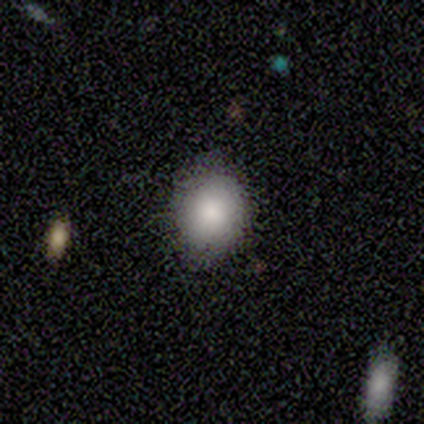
Overall: smooth (80%). How rounded: in between (75%). Merging: none (80%).